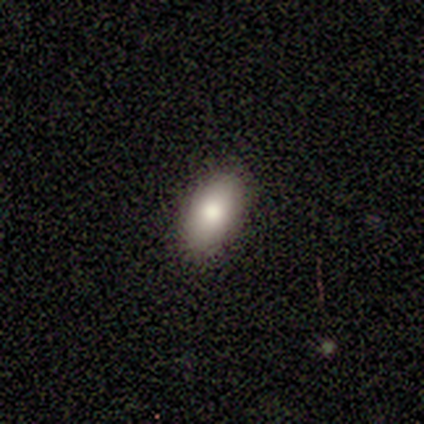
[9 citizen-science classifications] This is likely a smooth galaxy (78%). How rounded: clearly in between (100%). Merging: clearly none (100%).